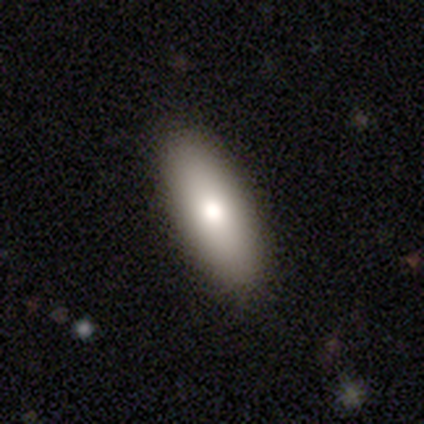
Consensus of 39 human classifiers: Volunteers were most divided on "how rounded": in between: 72%, cigar-shaped: 25%, round: 3%. More confident: merging — none (87%); smooth or featured — smooth (82%).